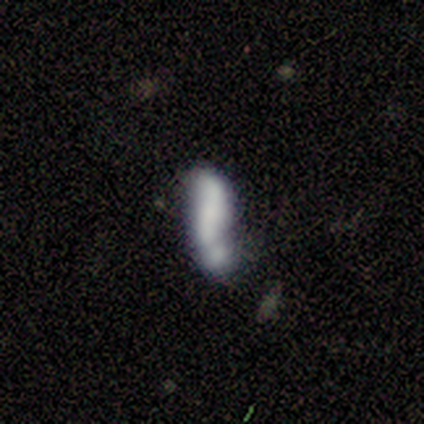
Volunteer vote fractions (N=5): Smooth or featured: smooth — 60% (featured or disk — 40%)
How rounded: in between — 67% (cigar-shaped — 33%)
Merging: none — 60% (minor disturbance — 20%)